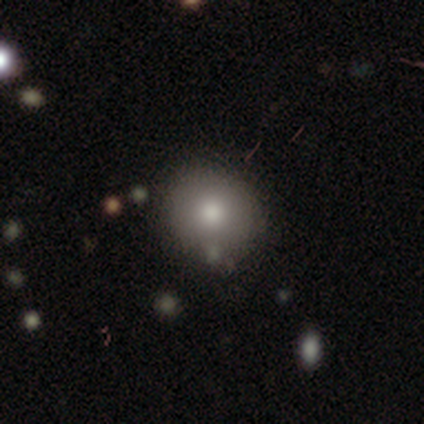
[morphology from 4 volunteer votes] smooth 50% (tied), featured or disk 50% (tied), star or artifact 0%. Down the decision tree: how rounded — round (50%, tied with in between); merging — none (50%, tied with minor disturbance).